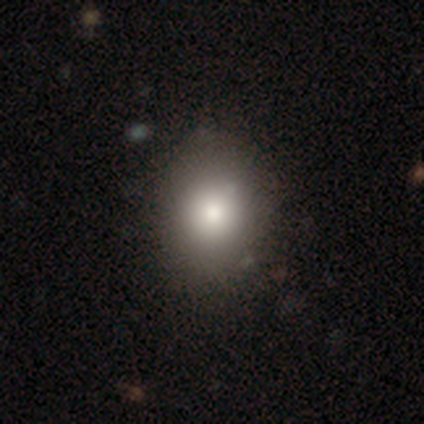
smooth_or_featured: smooth (p=0.79) [alt: featured or disk p=0.12]
how_rounded: round (p=0.55) [alt: in between p=0.45]
merging: none (p=0.82) [alt: minor disturbance p=0.17]